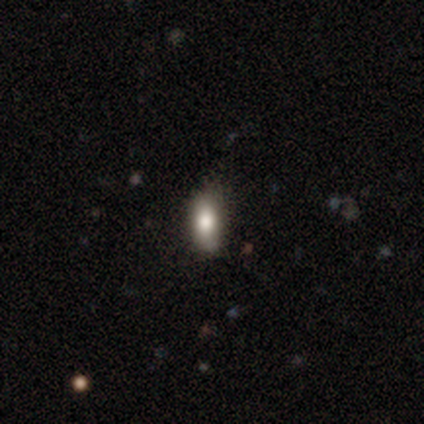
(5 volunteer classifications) Smooth or featured: smooth — 100%
How rounded: in between — 80% (cigar-shaped — 20%)
Merging: none — 60% (minor disturbance — 40%)